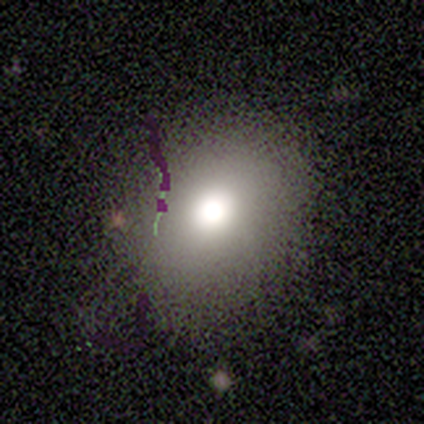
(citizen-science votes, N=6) A smooth galaxy with no disk features (67%) that is round (50%, tied with in between). Merging: none (100%).